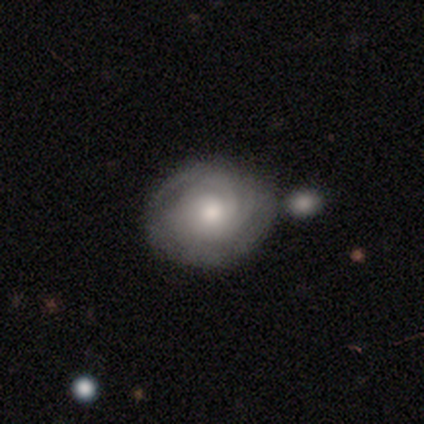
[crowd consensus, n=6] Overall: featured or disk (83%). Edge-on disk: no (100%). Bar: no (80%). Spiral arms: yes (100%). Spiral arm count: 2 (40%, tied with can't tell). Spiral winding: tight (100%). Bulge size: moderate (80%). Merging: none (50%; merger 33%).